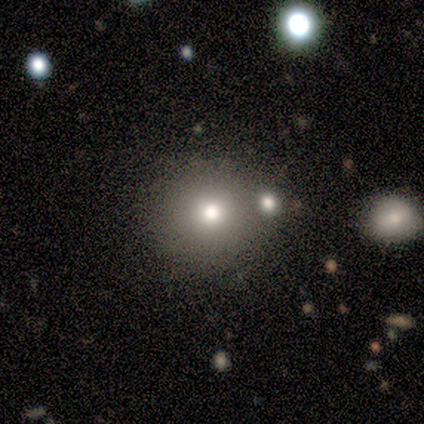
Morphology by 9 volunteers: smooth-or-featured: smooth: 44% (tied) | featured or disk: 44% (tied) | star or artifact: 11%
  how-rounded: round: 100% | in between: 0% | cigar-shaped: 0%
  merging: none: 88% | merger: 12% | minor disturbance: 0% | major disturbance: 0%